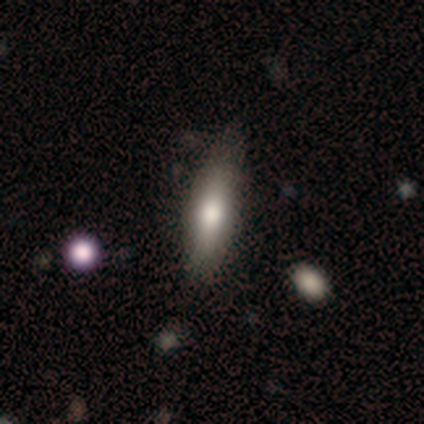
smooth-or-featured: smooth: 77% | featured or disk: 18% | star or artifact: 5%
  how-rounded: in between: 50% (tied) | cigar-shaped: 50% (tied) | round: 0%
  merging: none: 76% | minor disturbance: 24% | major disturbance: 0% | merger: 0%